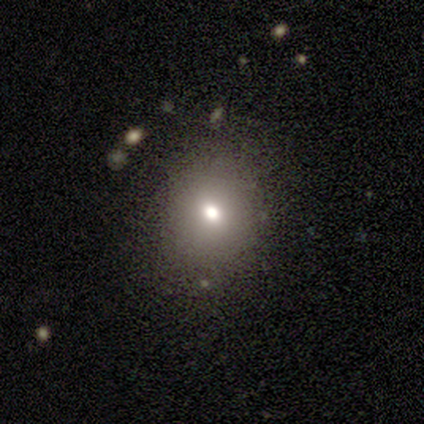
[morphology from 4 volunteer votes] Overall: smooth (50%; featured or disk 25%). How rounded: round (100%). Merging: none (100%).